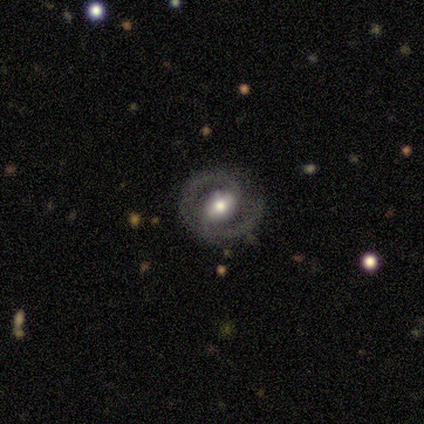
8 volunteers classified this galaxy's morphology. A featured or disk galaxy (75%) with a weak bar (60%), 2 (100%) medium (75%) spiral arms (80%) and a moderate central bulge (60%).

Vote fractions:
- Smooth or featured? featured or disk: 75% / smooth: 12% / star or artifact: 12%
- Edge-on disk? no: 83% / yes: 17%
- Bar? weak: 60% / strong: 20% / no: 20%
- Spiral arms? yes: 80% / no: 20%
- Spiral winding? medium: 75% / tight: 25% / loose: 0%
- Spiral arm count? 2: 100% / 1: 0% / 3: 0% / 4: 0% / more than 4: 0% / can't tell: 0%
- Bulge size? moderate: 60% / small: 40% / dominant: 0% / large: 0% / none: 0%
- Merging? none: 57% / minor disturbance: 29% / major disturbance: 14% / merger: 0%